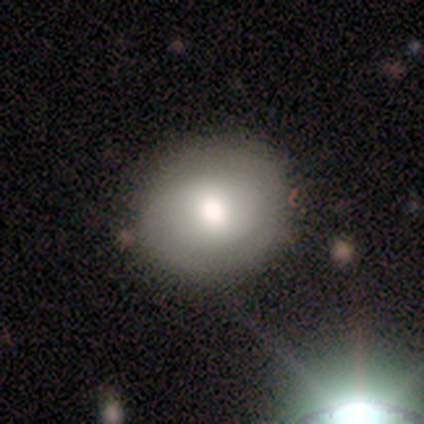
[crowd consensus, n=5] Morphology: type=smooth (60%); roundness=round (67%); merging=none (75%).